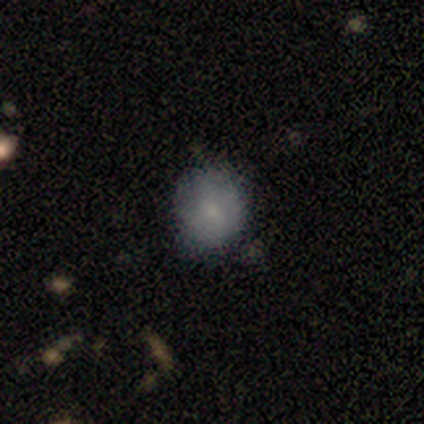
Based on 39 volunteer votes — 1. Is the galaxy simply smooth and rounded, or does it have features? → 69% smooth, 26% featured or disk, 5% star or artifact.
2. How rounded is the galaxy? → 93% round, 7% in between, 0% cigar-shaped.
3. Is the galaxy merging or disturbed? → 76% none, 19% minor disturbance, 3% major disturbance, 3% merger.